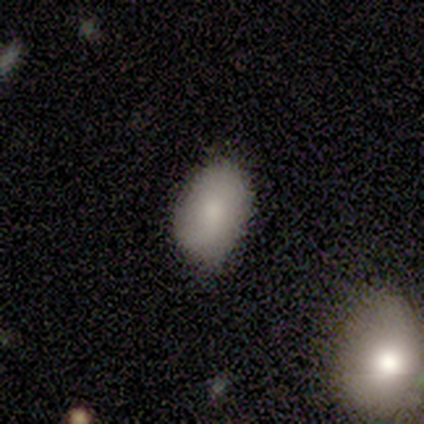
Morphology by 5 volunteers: A smooth galaxy with no disk features (80%) that is in between round and cigar-shaped (75%).

Vote fractions:
- Smooth or featured? smooth: 80% / featured or disk: 20% / star or artifact: 0%
- How rounded? in between: 75% / round: 25% / cigar-shaped: 0%
- Merging? none: 100% / minor disturbance: 0% / major disturbance: 0% / merger: 0%